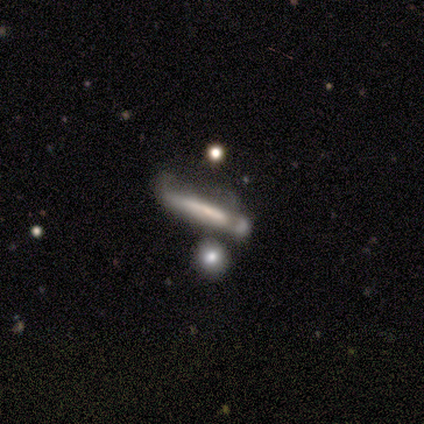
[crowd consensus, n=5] This appears to be a featured or disk galaxy (80%) viewed edge-on (50%, tied with no) with a boxy central bulge (50%, tied with none). Merging: major disturbance (60%).